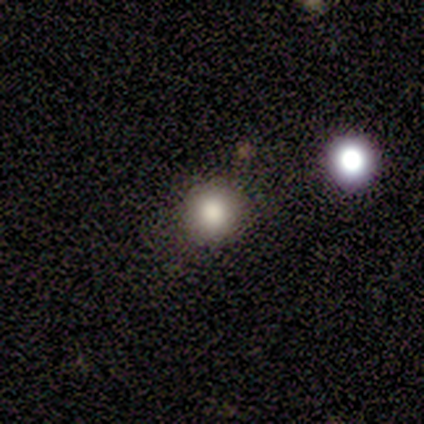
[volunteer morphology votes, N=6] Volunteers were most divided on "smooth or featured": smooth: 67%, star or artifact: 33%, featured or disk: 0%. More confident: how rounded — round (100%); merging — none (100%).